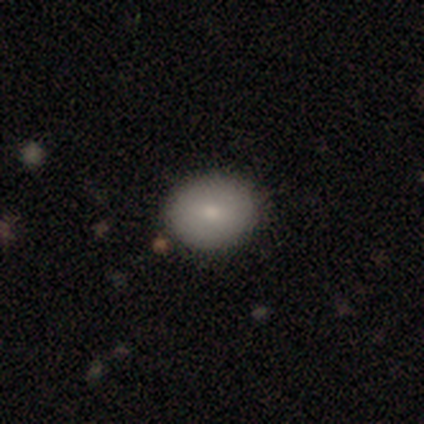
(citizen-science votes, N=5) smooth 80%, star or artifact 20%, featured or disk 0%. Down the decision tree: how rounded — in between (75%); merging — none (75%).